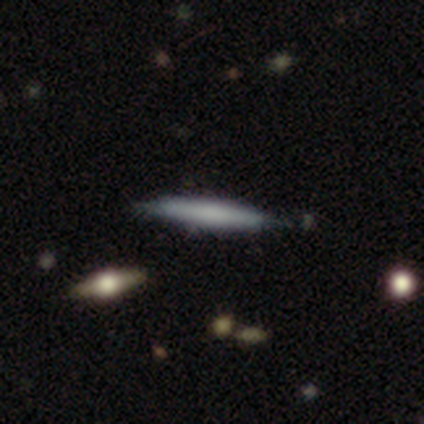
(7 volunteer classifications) Smooth or featured?
  - smooth: 71% *
  - featured or disk: 14%
  - star or artifact: 14%
How rounded?
  - cigar-shaped: 100% *
  - round: 0%
  - in between: 0%
Merging?
  - none: 67% *
  - minor disturbance: 17%
  - merger: 17%
  - major disturbance: 0%